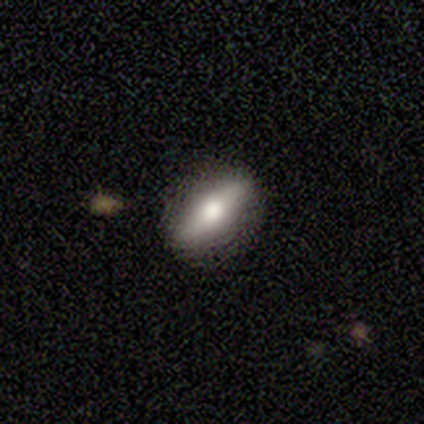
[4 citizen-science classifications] A featured or disk galaxy (75%) viewed edge-on (100%) with a rounded central bulge (100%). Merging: none (75%).